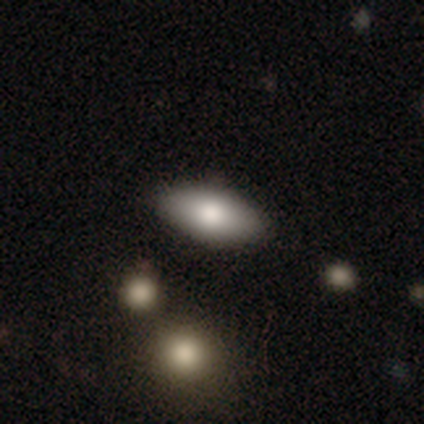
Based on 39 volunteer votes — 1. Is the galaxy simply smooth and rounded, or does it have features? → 87% smooth, 10% featured or disk, 3% star or artifact.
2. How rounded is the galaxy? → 97% in between, 3% cigar-shaped, 0% round.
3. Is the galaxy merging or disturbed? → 89% none, 5% minor disturbance, 5% major disturbance, 0% merger.